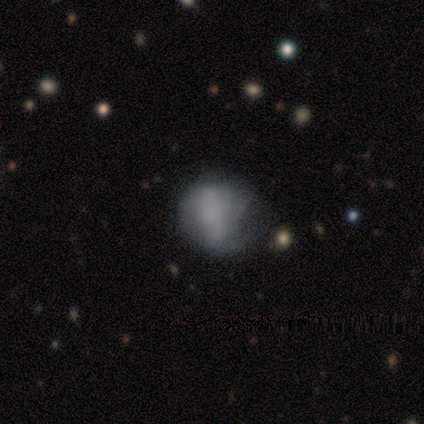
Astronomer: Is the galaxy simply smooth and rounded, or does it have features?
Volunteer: featured or disk — 100%.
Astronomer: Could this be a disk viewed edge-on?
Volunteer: no — 100%.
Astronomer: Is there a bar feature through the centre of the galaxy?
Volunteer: strong — 40%, tied with weak at 40%.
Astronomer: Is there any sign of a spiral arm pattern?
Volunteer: no — 80%.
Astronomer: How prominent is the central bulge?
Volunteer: none — 60%.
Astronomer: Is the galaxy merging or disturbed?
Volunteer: none — 40%, tied with major disturbance at 40%.